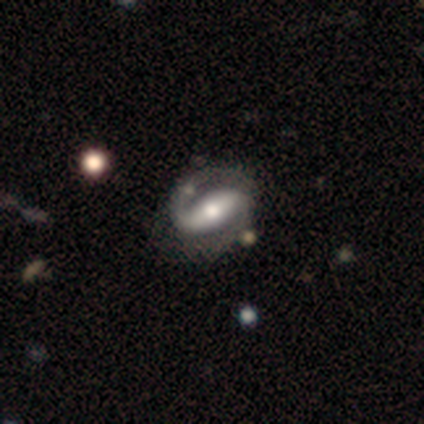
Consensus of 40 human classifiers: This appears to be a featured or disk galaxy (88%) with a strong bar (67%), 2 (88%) tight (45%) spiral arms (100%) and a moderate central bulge (76%). Merging: none (55%).